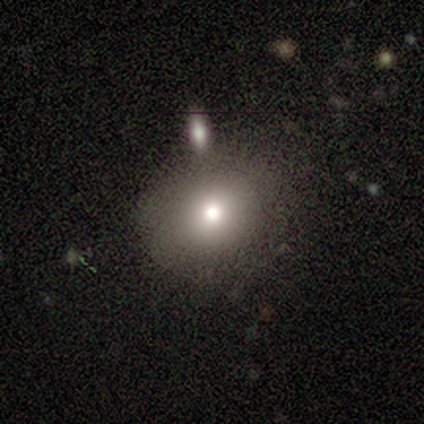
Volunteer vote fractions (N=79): This appears to be a smooth galaxy with no disk features (72%) that is round (68%). Merging: none (41%).